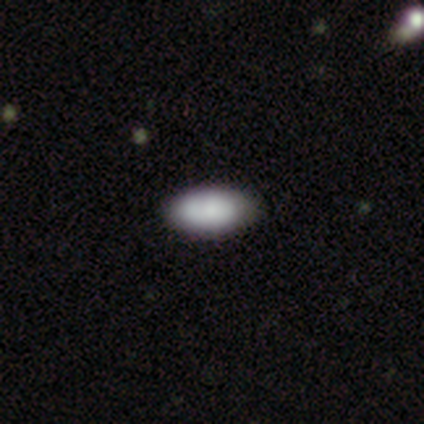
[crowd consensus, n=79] A smooth galaxy with no disk features (86%) that is in between round and cigar-shaped (96%).

Vote fractions:
- Smooth or featured? smooth: 86% / featured or disk: 10% / star or artifact: 4%
- How rounded? in between: 96% / round: 3% / cigar-shaped: 1%
- Merging? none: 43% / minor disturbance: 5% / merger: 4% / major disturbance: 1%